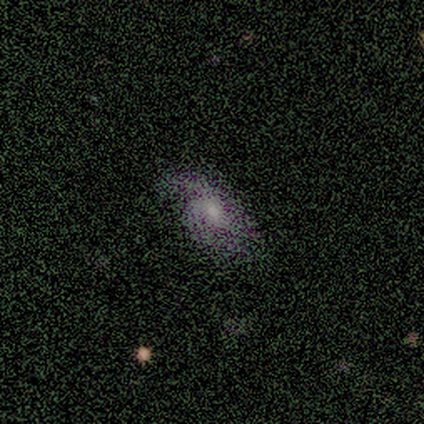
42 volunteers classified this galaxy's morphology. Smooth or featured: featured or disk — 64% (smooth — 24%)
Edge-on disk: no — 100%
Bar: no — 74% (weak — 19%)
Spiral arms: yes — 85% (no — 15%)
Spiral winding: medium — 39% (tight — 30%)
Spiral arm count: 2 — 61% (can't tell — 22%)
Bulge size: moderate — 48% (small — 41%)
Merging: none — 65% (minor disturbance — 24%)